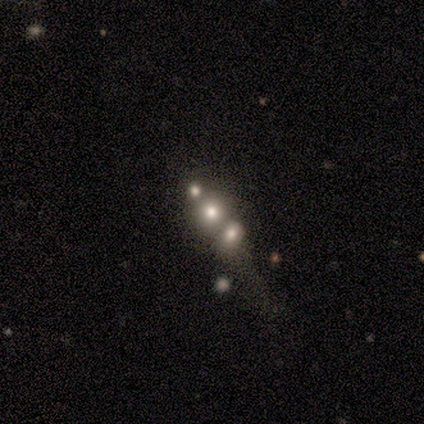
Smooth or featured?
  - featured or disk: 60% *
  - smooth: 20%
  - star or artifact: 20%
Edge-on disk?
  - no: 100% *
  - yes: 0%
Bar?
  - no: 100% *
  - strong: 0%
  - weak: 0%
Spiral arms?
  - no: 100% *
  - yes: 0%
Bulge size?
  - large: 67% *
  - dominant: 33%
  - moderate: 0%
  - small: 0%
  - none: 0%
Merging?
  - merger: 100% *
  - none: 0%
  - minor disturbance: 0%
  - major disturbance: 0%